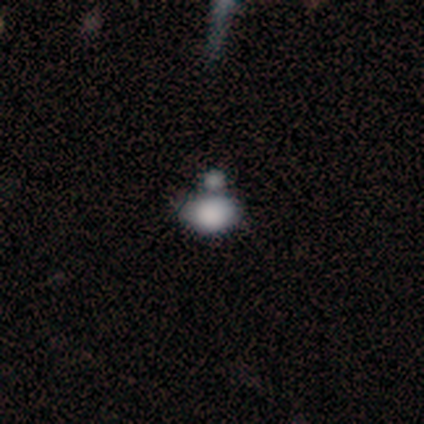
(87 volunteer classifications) Smooth or featured: smooth — 76% (star or artifact — 15%)
How rounded: in between — 77% (round — 21%)
Merging: merger — 50% (none — 31%)